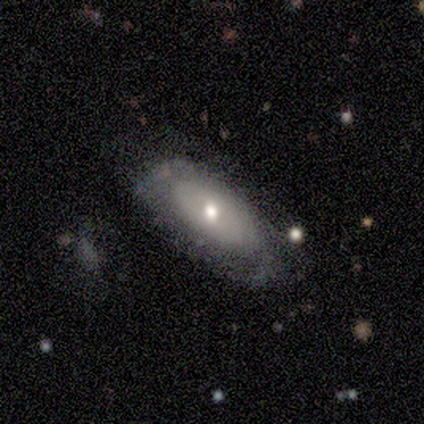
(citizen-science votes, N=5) Q: Smooth or featured?
A: featured or disk (60%); runner-up: smooth (40%)
Q: Edge-on disk?
A: no (100%)
Q: Bar?
A: no (100%)
Q: Spiral arms?
A: no (67%); runner-up: yes (33%)
Q: Bulge size?
A: moderate (67%); runner-up: small (33%)
Q: Merging?
A: none (80%); runner-up: minor disturbance (20%)